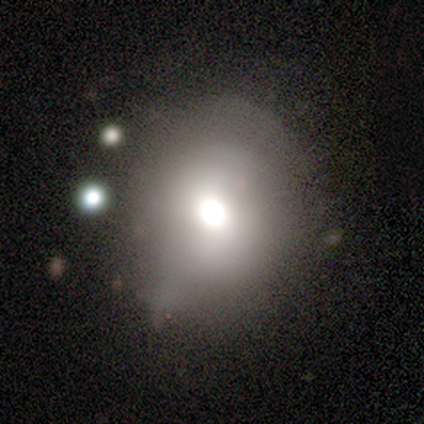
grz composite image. It shows a smooth galaxy with no disk features (58%) that is round (77%). Merging: none (48%).